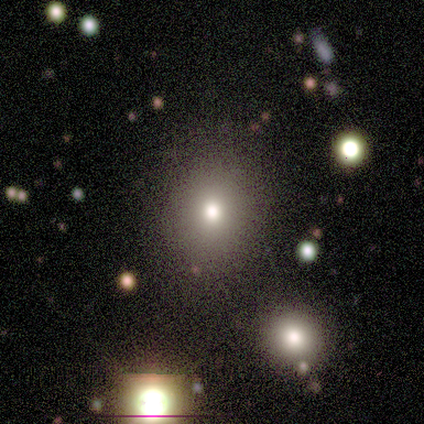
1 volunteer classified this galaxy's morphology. Overall: featured or disk (100%). Edge-on disk: no (100%). Bar: no (100%). Spiral arms: no (100%). Bulge size: moderate (100%). Merging: none (100%).